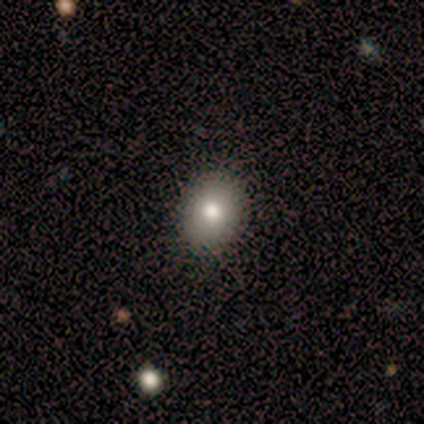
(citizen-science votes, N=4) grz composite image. It shows a smooth galaxy with no disk features (75%) that is round (100%). Merging: none (100%).